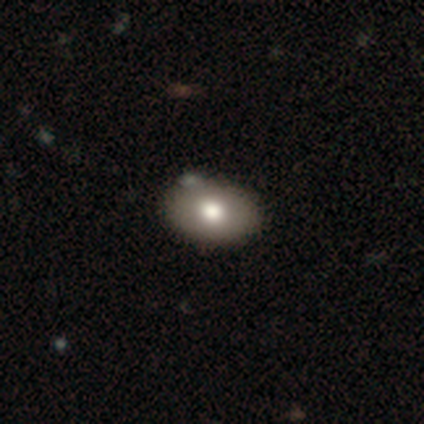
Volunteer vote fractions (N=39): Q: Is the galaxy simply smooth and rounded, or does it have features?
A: smooth — 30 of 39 (77%).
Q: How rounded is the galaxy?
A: in between — 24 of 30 (80%).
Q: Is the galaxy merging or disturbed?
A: none — 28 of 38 (74%).